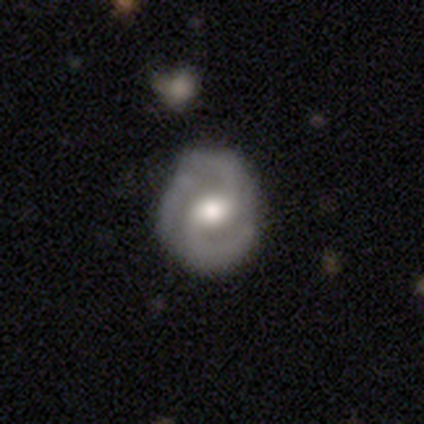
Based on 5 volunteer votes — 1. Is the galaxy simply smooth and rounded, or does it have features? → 100% featured or disk, 0% smooth, 0% star or artifact.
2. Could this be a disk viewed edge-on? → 100% no, 0% yes.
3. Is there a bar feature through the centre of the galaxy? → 40% weak (tied), 40% no (tied), 20% strong.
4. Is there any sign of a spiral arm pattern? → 60% yes, 40% no.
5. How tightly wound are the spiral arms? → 67% loose, 33% tight, 0% medium.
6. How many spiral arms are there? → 100% 2, 0% 1, 0% 3, 0% 4, 0% more than 4, 0% can't tell.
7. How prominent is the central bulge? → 60% moderate, 40% large, 0% dominant, 0% small, 0% none.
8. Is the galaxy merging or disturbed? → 80% none, 20% major disturbance, 0% minor disturbance, 0% merger.